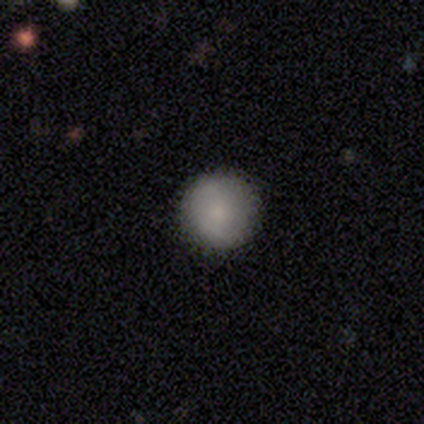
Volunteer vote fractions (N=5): smooth-or-featured: smooth: 60% | featured or disk: 20% | star or artifact: 20%
  how-rounded: round: 100% | in between: 0% | cigar-shaped: 0%
  merging: none: 100% | minor disturbance: 0% | major disturbance: 0% | merger: 0%